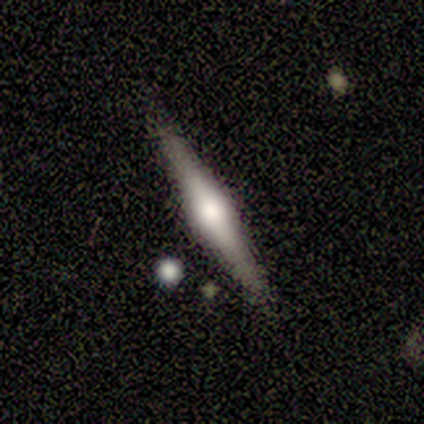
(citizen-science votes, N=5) Smooth or featured: smooth — 60% (featured or disk — 40%)
How rounded: in between — 67% (cigar-shaped — 33%)
Merging: none — 80% (merger — 20%)